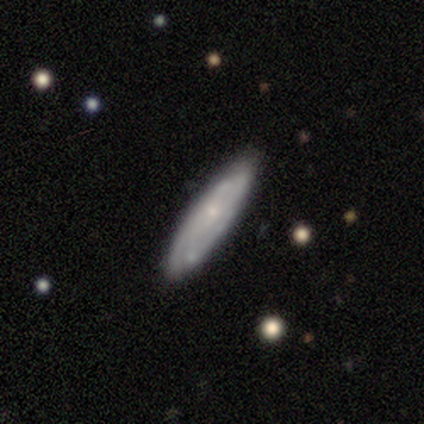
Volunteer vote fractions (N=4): smooth-or-featured: smooth: 50% (tied) | featured or disk: 50% (tied) | star or artifact: 0%
  how-rounded: in between: 100% | round: 0% | cigar-shaped: 0%
  merging: none: 100% | minor disturbance: 0% | major disturbance: 0% | merger: 0%